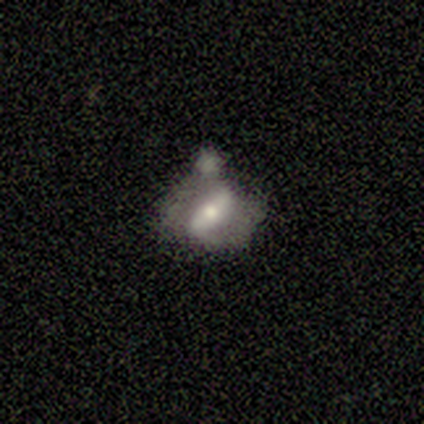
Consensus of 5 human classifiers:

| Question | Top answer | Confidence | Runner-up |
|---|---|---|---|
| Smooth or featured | featured or disk | 80% | smooth (20%) |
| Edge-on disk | no | 100% | — |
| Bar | no | 75% | strong (25%) |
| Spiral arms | no | 75% | yes (25%) |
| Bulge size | small | 75% | moderate (25%) |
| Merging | none | 40% | tied: merger (40%) |